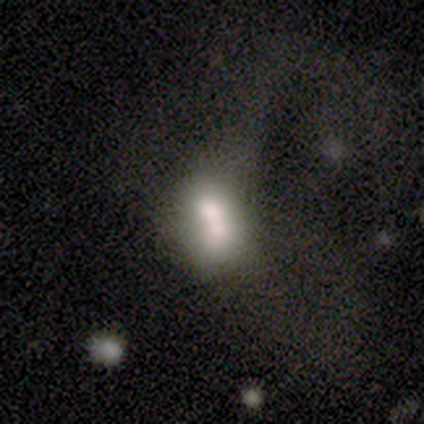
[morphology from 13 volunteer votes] A smooth galaxy with no disk features (54%) that is in between round and cigar-shaped (71%). Merging: merger (45%).